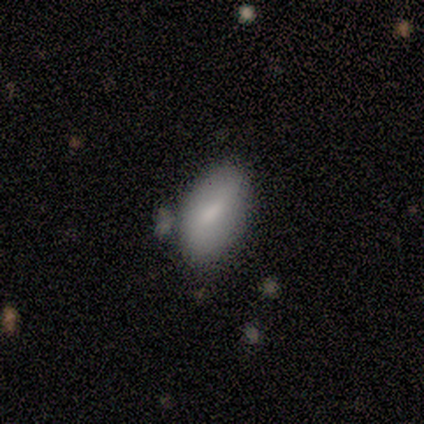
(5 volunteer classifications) Overall: smooth (80%). How rounded: in between (50%; round 25%). Merging: minor disturbance (60%; none 20%).